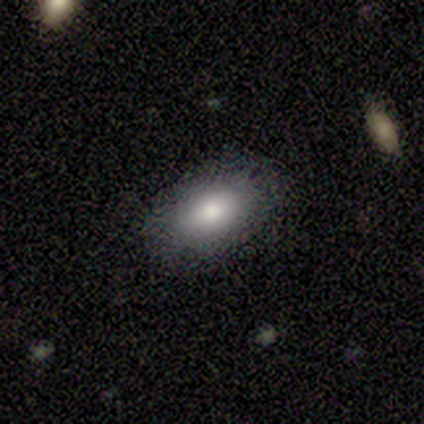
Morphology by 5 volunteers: Q: Smooth or featured?
A: smooth (100%)
Q: How rounded?
A: in between (100%)
Q: Merging?
A: none (80%); runner-up: minor disturbance (20%)